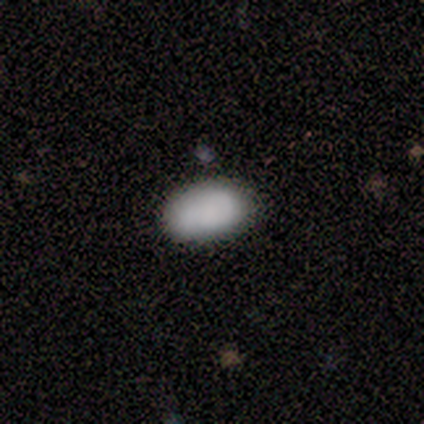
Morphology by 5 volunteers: Consensus on every question: smooth or featured — smooth (100%); how rounded — in between (100%); merging — none (100%).